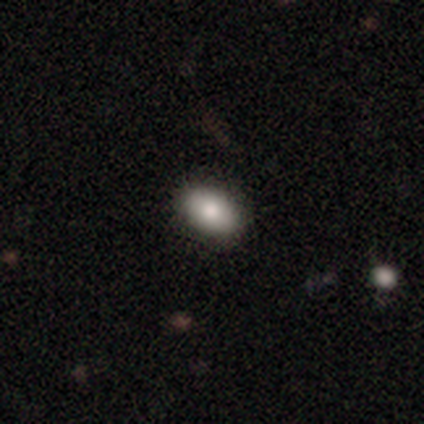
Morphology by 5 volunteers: This is clearly a smooth galaxy (80%). How rounded: clearly in between (100%). Merging: clearly none (100%).